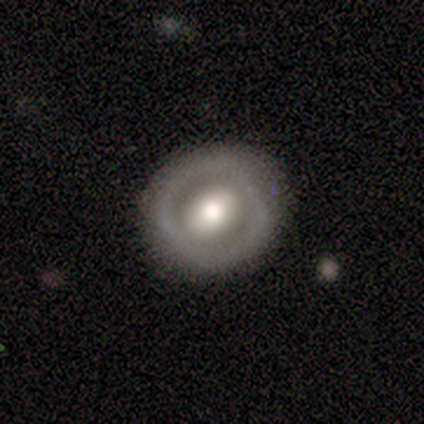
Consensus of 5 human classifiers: Q: Smooth or featured?
A: featured or disk (60%); runner-up: smooth (40%)
Q: Edge-on disk?
A: no (100%)
Q: Bar?
A: weak (67%); runner-up: no (33%)
Q: Spiral arms?
A: no (67%); runner-up: yes (33%)
Q: Bulge size?
A: moderate (67%); runner-up: large (33%)
Q: Merging?
A: none (80%); runner-up: minor disturbance (20%)